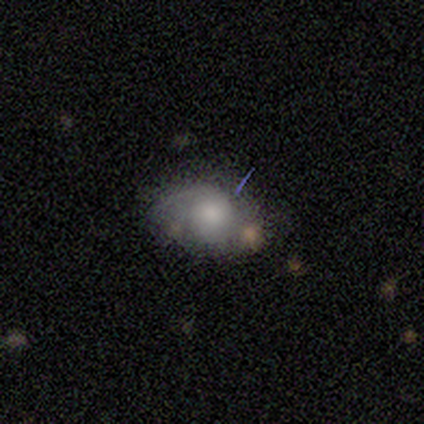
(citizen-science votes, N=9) Morphology: type=smooth (67%); roundness=in between (83%); merging=none (50%).